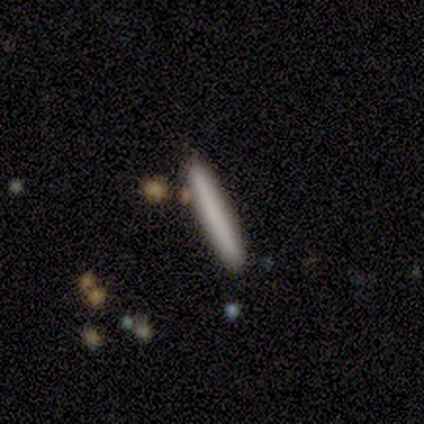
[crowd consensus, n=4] Morphology: type=smooth (100%); roundness=cigar-shaped (100%); merging=none (100%).